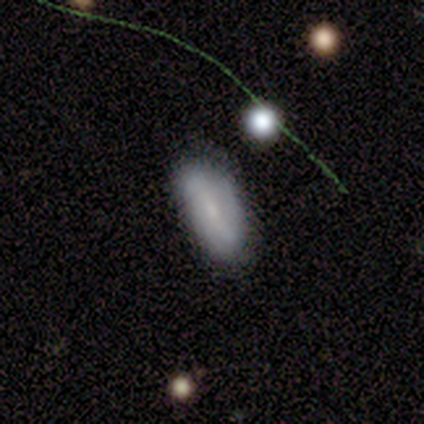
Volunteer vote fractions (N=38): Volunteers were most divided on "smooth or featured": smooth: 66%, featured or disk: 21%, star or artifact: 13%. More confident: how rounded — in between (84%); merging — none (76%).